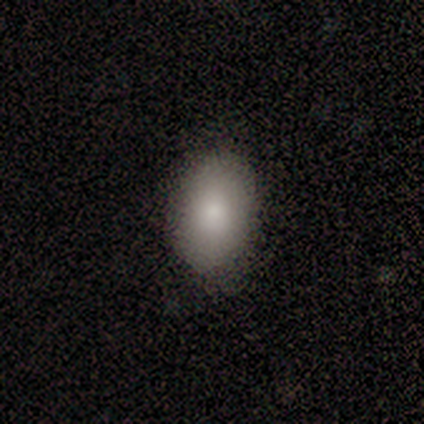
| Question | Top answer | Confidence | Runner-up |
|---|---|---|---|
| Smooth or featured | smooth | 100% | — |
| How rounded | in between | 80% | round (20%) |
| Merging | none | 100% | — |